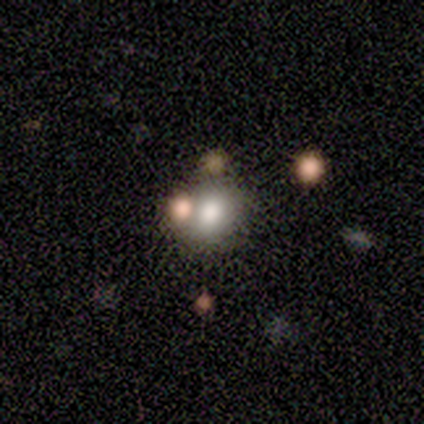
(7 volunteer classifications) Q: Smooth or featured?
A: smooth (57%); runner-up: featured or disk (29%)
Q: How rounded?
A: in between (75%); runner-up: round (25%)
Q: Merging?
A: none (67%); runner-up: merger (33%)